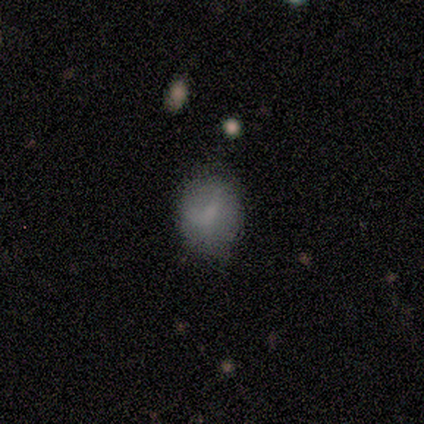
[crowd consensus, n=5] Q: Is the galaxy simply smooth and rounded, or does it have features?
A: smooth — 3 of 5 (60%).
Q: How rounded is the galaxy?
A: in between — 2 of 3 (67%).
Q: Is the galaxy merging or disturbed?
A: none — 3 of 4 (75%).